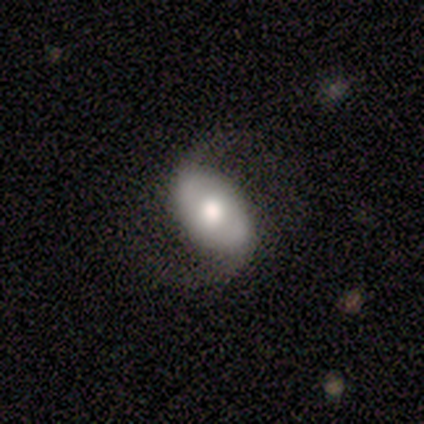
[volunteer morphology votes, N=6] Smooth or featured?
  - featured or disk: 83% *
  - smooth: 17%
  - star or artifact: 0%
Edge-on disk?
  - no: 100% *
  - yes: 0%
Bar?
  - no: 80% *
  - strong: 20%
  - weak: 0%
Spiral arms?
  - yes: 100% *
  - no: 0%
Spiral winding?
  - loose: 80% *
  - medium: 20%
  - tight: 0%
Spiral arm count?
  - 2: 100% *
  - 1: 0%
  - 3: 0%
  - 4: 0%
  - more than 4: 0%
  - can't tell: 0%
Bulge size?
  - moderate: 80% *
  - dominant: 20%
  - large: 0%
  - small: 0%
  - none: 0%
Merging?
  - none: 83% *
  - major disturbance: 17%
  - minor disturbance: 0%
  - merger: 0%